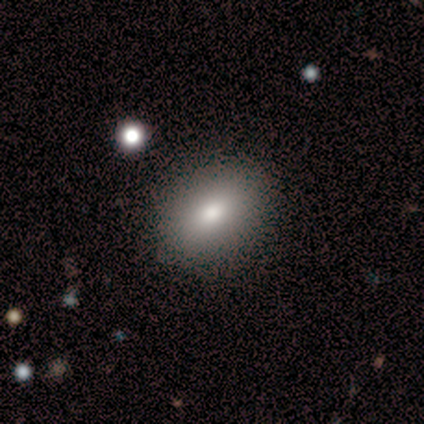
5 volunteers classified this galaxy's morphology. This is clearly a smooth galaxy (80%). How rounded: clearly in between (100%). Merging: clearly none (100%).